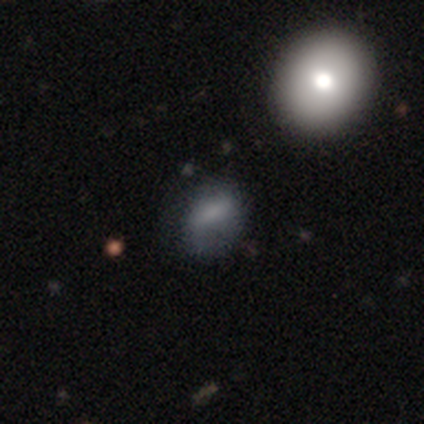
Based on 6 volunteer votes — Q: Smooth or featured?
A: smooth (33%); tied with: featured or disk (33%); star or artifact (33%)
Q: How rounded?
A: in between (100%)
Q: Merging?
A: minor disturbance (50%); runner-up: none (25%)